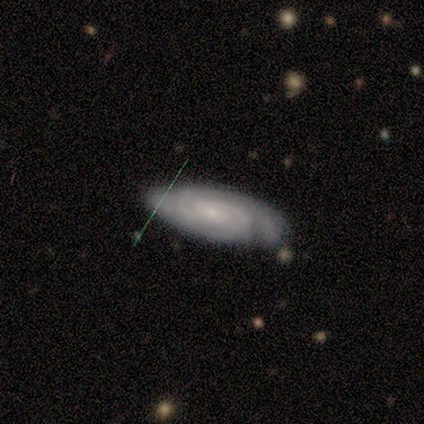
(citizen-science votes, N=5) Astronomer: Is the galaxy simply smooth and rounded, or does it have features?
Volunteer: featured or disk — 60% (runner-up: smooth, 40%).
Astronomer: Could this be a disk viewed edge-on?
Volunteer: no — 100%.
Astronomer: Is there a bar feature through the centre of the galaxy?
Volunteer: weak — 67%.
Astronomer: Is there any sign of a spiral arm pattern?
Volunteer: yes — 100%.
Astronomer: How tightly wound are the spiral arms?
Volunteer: tight — 100%.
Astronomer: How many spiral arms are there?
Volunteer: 2 — 67%.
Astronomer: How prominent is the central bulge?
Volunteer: small — 100%.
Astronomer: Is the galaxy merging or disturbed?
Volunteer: minor disturbance — 60%.